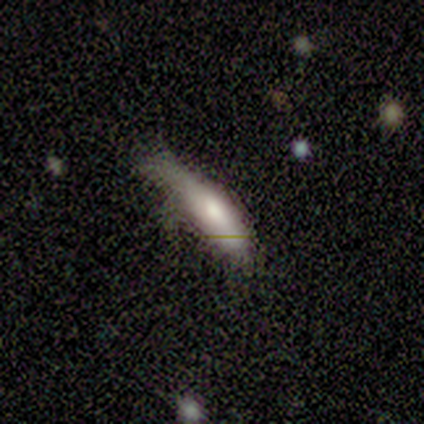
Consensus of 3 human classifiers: A smooth galaxy with no disk features (67%) that is in between round and cigar-shaped (50%, tied with cigar-shaped).

Vote fractions:
- Smooth or featured? smooth: 67% / featured or disk: 33% / star or artifact: 0%
- How rounded? in between: 50% (tied) / cigar-shaped: 50% (tied) / round: 0%
- Merging? minor disturbance: 100% / none: 0% / major disturbance: 0% / merger: 0%